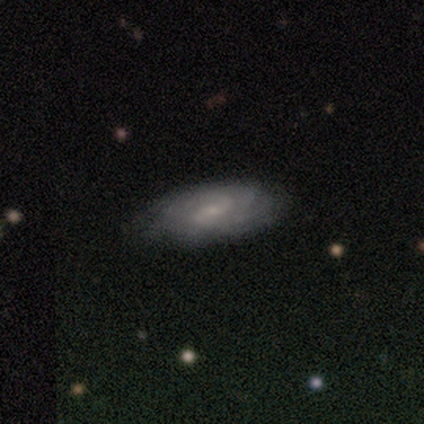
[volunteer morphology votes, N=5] Smooth or featured? 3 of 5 (60%) said featured or disk. Edge-on disk? 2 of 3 (67%) said no. Bar? 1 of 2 (50%, tied with no) said strong. Spiral arms? 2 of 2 (100%) said yes. Spiral winding? 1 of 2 (50%, tied with medium) said tight. Spiral arm count? 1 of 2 (50%, tied with can't tell) said 3. Bulge size? 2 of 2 (100%) said small. Merging? 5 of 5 (100%) said none.